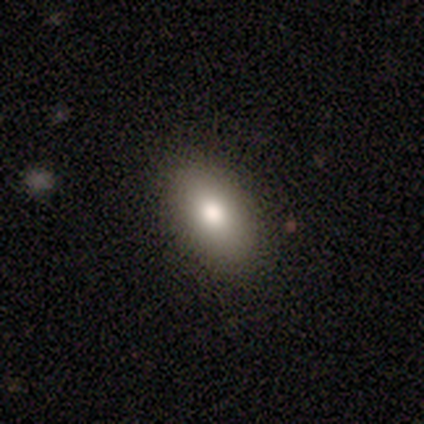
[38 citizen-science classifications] Q: Smooth or featured?
A: smooth (82%); runner-up: featured or disk (16%)
Q: How rounded?
A: in between (97%); runner-up: cigar-shaped (3%)
Q: Merging?
A: none (89%); runner-up: minor disturbance (11%)